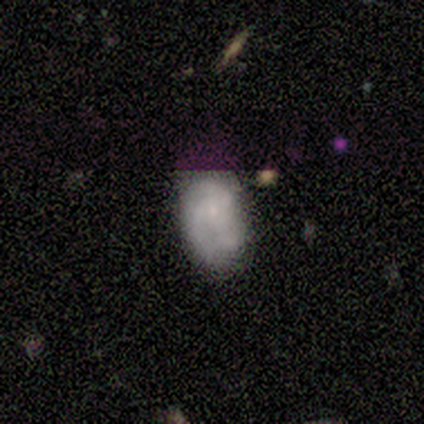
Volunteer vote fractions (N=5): This appears to be a smooth galaxy with no disk features (40%, tied with star or artifact) that is in between round and cigar-shaped (100%). Merging: none (67%).